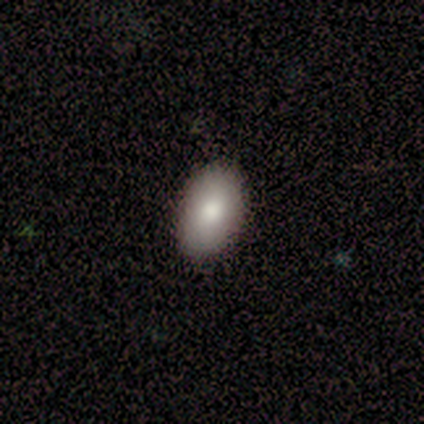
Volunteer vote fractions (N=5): This is marginally a smooth galaxy (40%, tied with star or artifact). How rounded: clearly in between (100%). Merging: clearly none (100%).